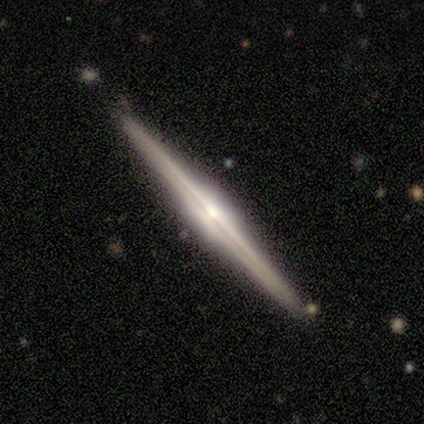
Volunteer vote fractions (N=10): Smooth or featured? 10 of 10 (100%) said featured or disk. Edge-on disk? 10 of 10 (100%) said yes. Edge-on bulge? 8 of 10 (80%) said rounded. Merging? 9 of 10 (90%) said none.